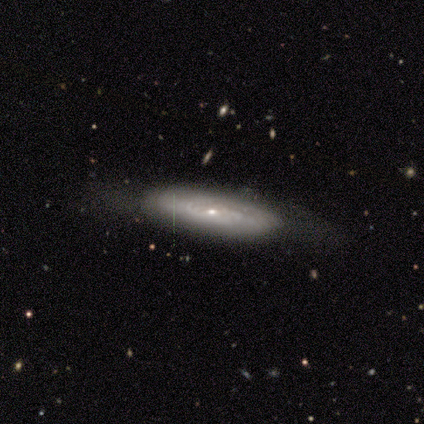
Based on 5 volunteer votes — Smooth or featured? featured or disk (80%)
Edge-on disk? no (75%)
Bar? no (100%)
Spiral arms? yes (67%)
Spiral winding? tight (100%)
Spiral arm count? can't tell (100%)
Bulge size? small (100%)
Merging? none (60%)